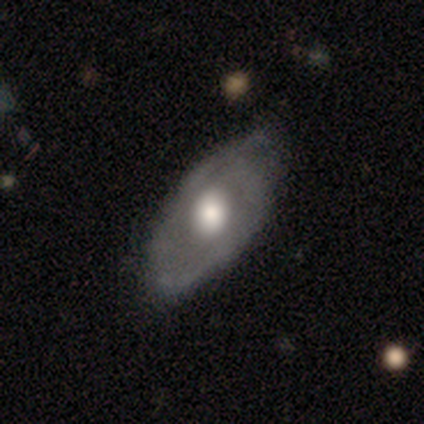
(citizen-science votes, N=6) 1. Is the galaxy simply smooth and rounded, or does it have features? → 67% featured or disk, 33% smooth, 0% star or artifact.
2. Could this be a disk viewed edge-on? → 75% no, 25% yes.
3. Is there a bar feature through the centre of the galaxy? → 100% no, 0% strong, 0% weak.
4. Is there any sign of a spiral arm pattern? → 67% yes, 33% no.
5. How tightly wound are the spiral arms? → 50% tight (tied), 50% loose (tied), 0% medium.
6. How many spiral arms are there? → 50% 2 (tied), 50% can't tell (tied), 0% 1, 0% 3, 0% 4, 0% more than 4.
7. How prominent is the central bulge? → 67% moderate, 33% large, 0% dominant, 0% small, 0% none.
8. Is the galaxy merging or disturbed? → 100% none, 0% minor disturbance, 0% major disturbance, 0% merger.